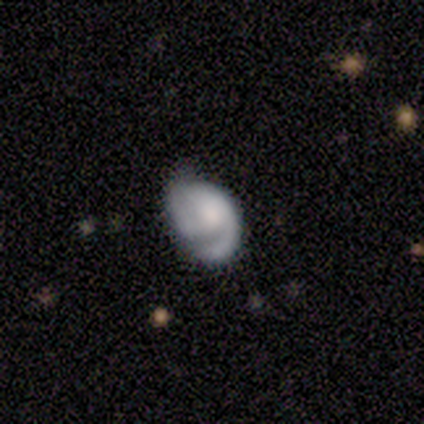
smooth_or_featured: featured or disk (p=0.80) [alt: smooth p=0.20]
disk_edge_on: no (p=1.00)
bar: no (p=0.75) [alt: weak p=0.25]
has_spiral_arms: yes (p=1.00)
spiral_winding: medium (p=0.50) [alt: tight p=0.25]
spiral_arm_count: 1 (p=0.75) [alt: 2 p=0.25]
bulge_size: moderate (p=0.50) [alt: large p=0.25]
merging: minor disturbance (p=0.60) [alt: none p=0.40]